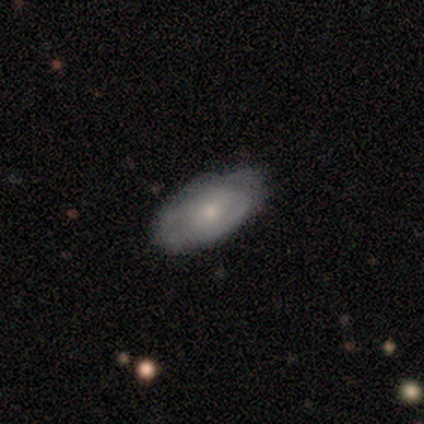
Smooth or featured?
  - smooth: 50% * (tied)
  - featured or disk: 50% * (tied)
  - star or artifact: 0%
How rounded?
  - in between: 100% *
  - round: 0%
  - cigar-shaped: 0%
Merging?
  - minor disturbance: 50% *
  - none: 25%
  - major disturbance: 25%
  - merger: 0%